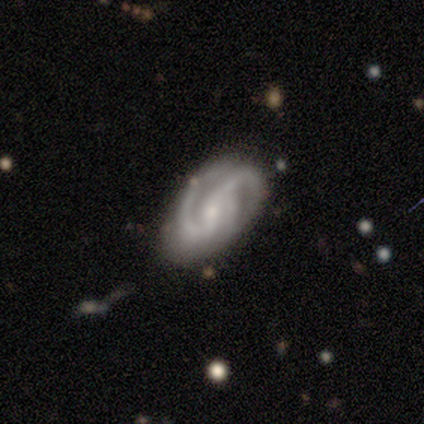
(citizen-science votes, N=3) Smooth or featured?
  - featured or disk: 100% *
  - smooth: 0%
  - star or artifact: 0%
Edge-on disk?
  - no: 100% *
  - yes: 0%
Bar?
  - no: 67% *
  - strong: 33%
  - weak: 0%
Spiral arms?
  - yes: 100% *
  - no: 0%
Spiral winding?
  - medium: 67% *
  - loose: 33%
  - tight: 0%
Spiral arm count?
  - 2: 100% *
  - 1: 0%
  - 3: 0%
  - 4: 0%
  - more than 4: 0%
  - can't tell: 0%
Bulge size?
  - moderate: 67% *
  - none: 33%
  - dominant: 0%
  - large: 0%
  - small: 0%
Merging?
  - none: 67% *
  - minor disturbance: 33%
  - major disturbance: 0%
  - merger: 0%